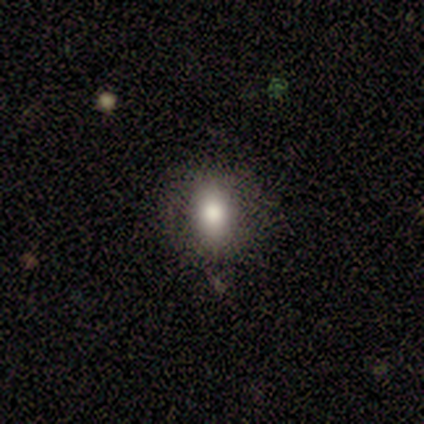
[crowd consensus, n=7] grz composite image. It shows a smooth galaxy with no disk features (86%) that is in between round and cigar-shaped (50%). Merging: none (83%).